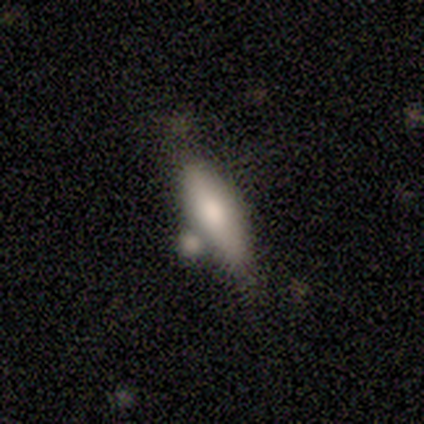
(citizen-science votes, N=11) Overall: featured or disk (45%; smooth 36%). Edge-on disk: yes (60%; no 40%). Edge-on bulge: rounded (100%). Merging: none (67%).